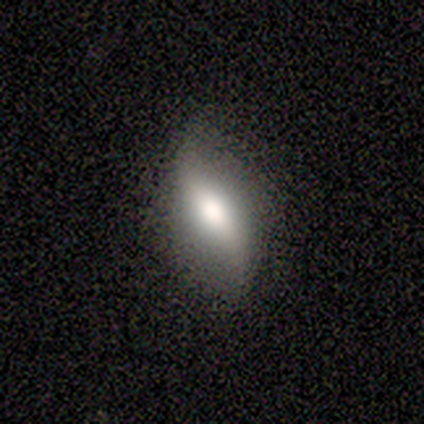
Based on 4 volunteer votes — Smooth or featured?
  - featured or disk: 75% *
  - smooth: 25%
  - star or artifact: 0%
Edge-on disk?
  - yes: 67% *
  - no: 33%
Edge-on bulge?
  - rounded: 100% *
  - boxy: 0%
  - none: 0%
Merging?
  - none: 75% *
  - minor disturbance: 25%
  - major disturbance: 0%
  - merger: 0%